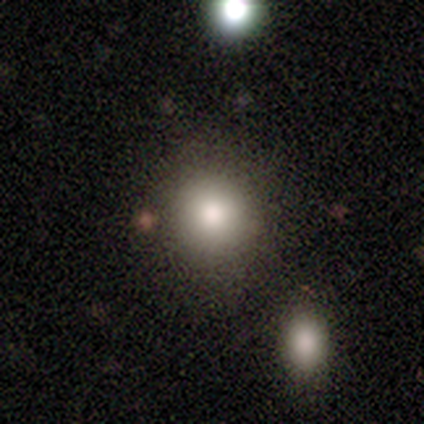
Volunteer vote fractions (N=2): Overall: smooth (100%). How rounded: round (100%). Merging: none (100%).